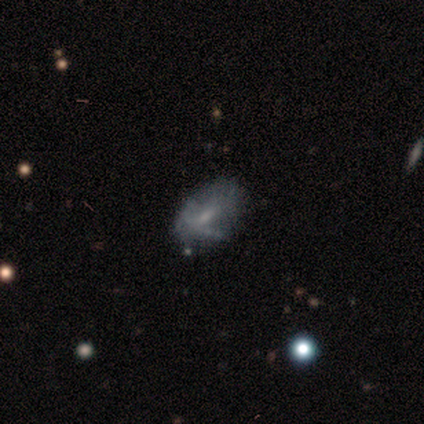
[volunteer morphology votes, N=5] Smooth or featured?
  - smooth: 60% *
  - featured or disk: 40%
  - star or artifact: 0%
How rounded?
  - in between: 100% *
  - round: 0%
  - cigar-shaped: 0%
Merging?
  - minor disturbance: 60% *
  - none: 40%
  - major disturbance: 0%
  - merger: 0%